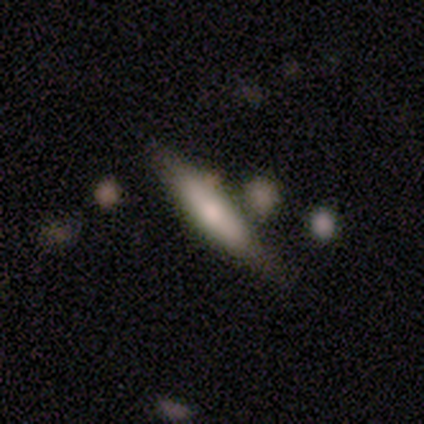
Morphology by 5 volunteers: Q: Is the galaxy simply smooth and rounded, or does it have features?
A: featured or disk — 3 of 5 (60%).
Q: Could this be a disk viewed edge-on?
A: yes — 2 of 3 (67%).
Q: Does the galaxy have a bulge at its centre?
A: boxy — 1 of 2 (50%, tied with rounded).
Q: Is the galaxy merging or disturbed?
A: none — 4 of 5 (80%).